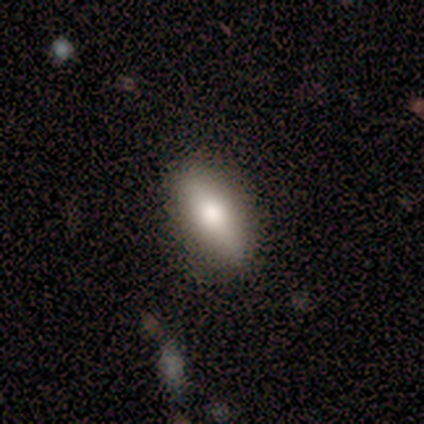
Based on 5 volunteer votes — Overall: smooth (100%). How rounded: in between (100%). Merging: none (80%).